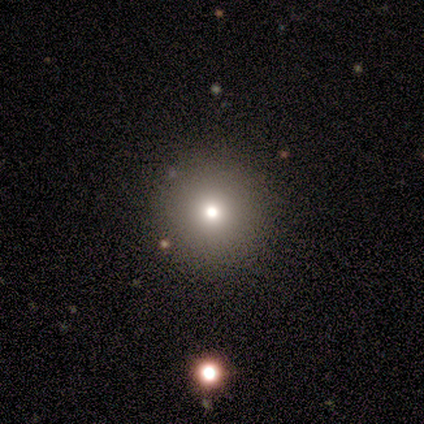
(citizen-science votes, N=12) Smooth or featured? 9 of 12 (75%) said smooth. How rounded? 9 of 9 (100%) said round. Merging? 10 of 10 (100%) said none.